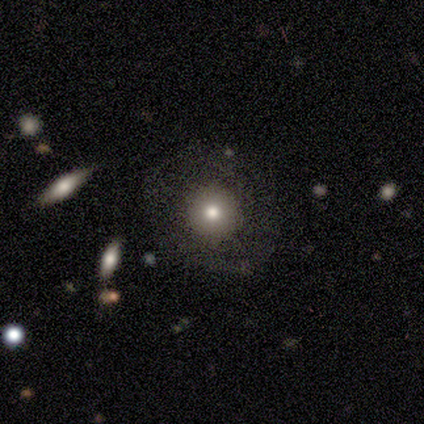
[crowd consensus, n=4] smooth_or_featured: smooth (p=0.75) [alt: star or artifact p=0.25]
how_rounded: round (p=0.67) [alt: in between p=0.33]
merging: none (p=0.67) [alt: minor disturbance p=0.33]